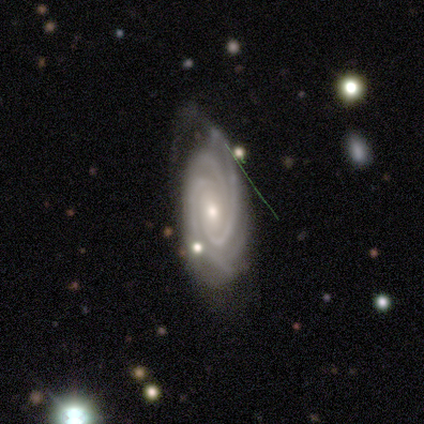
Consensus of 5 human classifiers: This appears to be a featured or disk galaxy (100%) with no bar (60%), 3 (40%) tight (80%) spiral arms (100%) and a small central bulge (60%). Merging: minor disturbance (40%, tied with major disturbance).